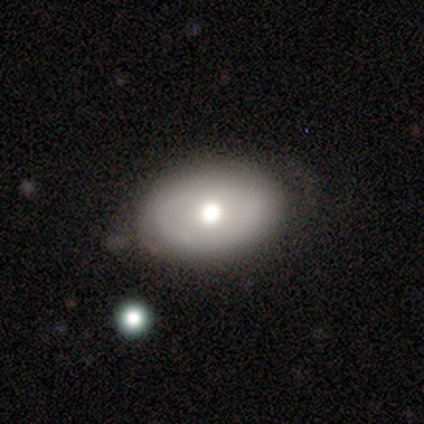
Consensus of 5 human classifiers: Smooth or featured? smooth (60%)
How rounded? in between (100%)
Merging? none (60%)